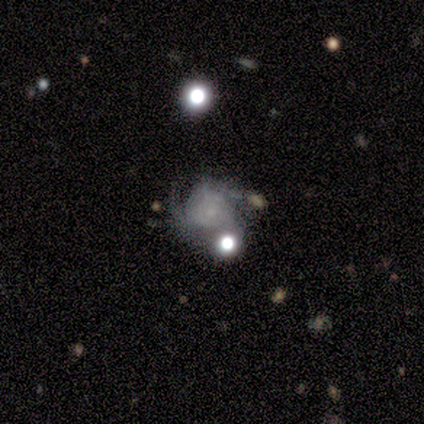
A featured or disk galaxy (80%) with no bar (100%), tight (50%, tied with medium) spiral arms (100%) and no central bulge (50%). Merging: none (60%).